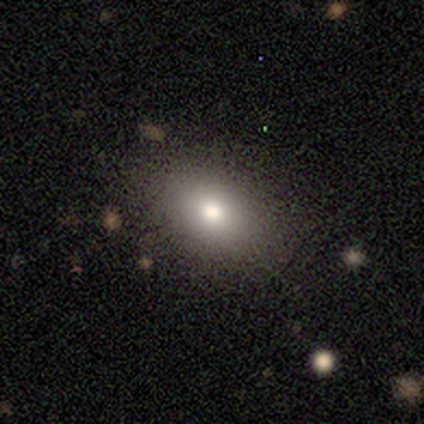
Morphology: type=smooth (90%); roundness=in between (77%); merging=none (86%).